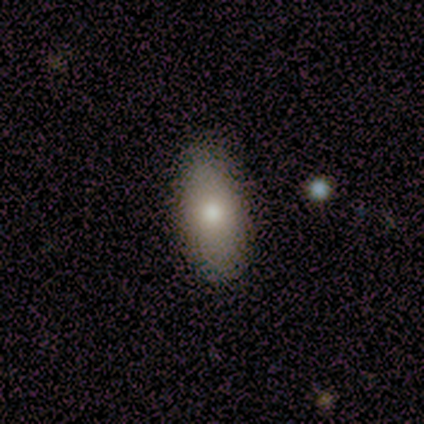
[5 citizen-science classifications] Smooth or featured: star or artifact — 60% (smooth — 40%)